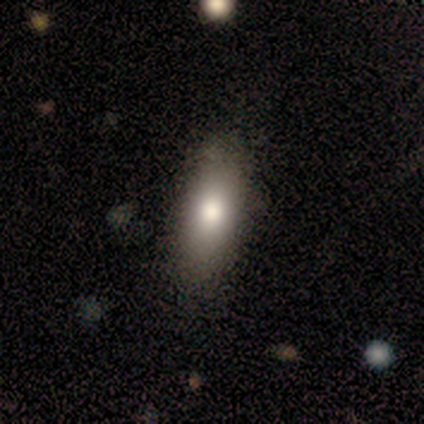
Overall: smooth (60%; featured or disk 40%). How rounded: in between (100%). Merging: none (100%).